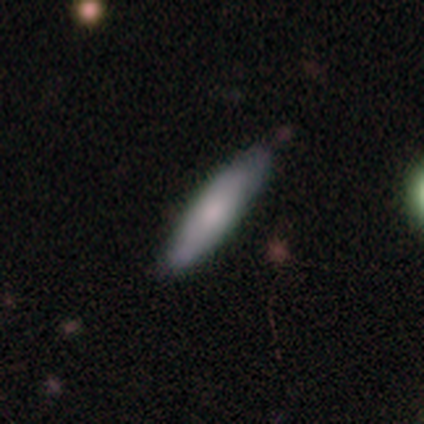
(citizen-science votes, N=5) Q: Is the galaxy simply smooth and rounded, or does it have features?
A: smooth — 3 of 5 (60%).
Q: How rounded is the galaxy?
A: cigar-shaped — 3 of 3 (100%).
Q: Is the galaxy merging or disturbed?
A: none — 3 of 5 (60%).